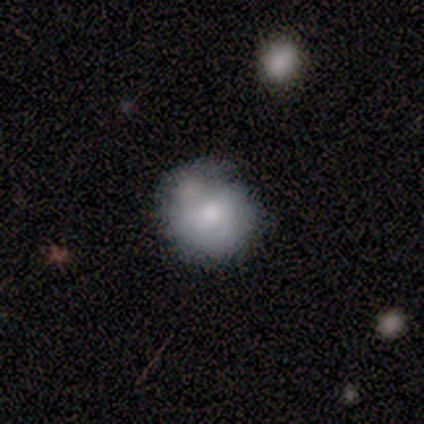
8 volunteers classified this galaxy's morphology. Overall: featured or disk (50%; smooth 38%). Edge-on disk: no (75%). Bar: no (100%). Spiral arms: no (100%). Bulge size: large (33%, tied with moderate and small). Merging: none (43%; merger 29%).